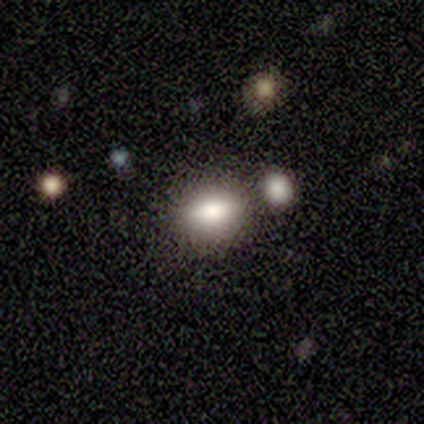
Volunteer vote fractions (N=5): Smooth or featured: smooth — 100%
How rounded: round — 80% (in between — 20%)
Merging: none — 60% (minor disturbance — 40%)